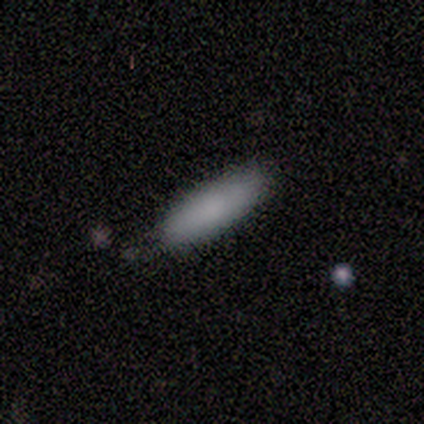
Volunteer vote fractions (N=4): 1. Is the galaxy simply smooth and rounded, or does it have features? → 100% smooth, 0% featured or disk, 0% star or artifact.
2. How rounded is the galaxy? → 75% cigar-shaped, 25% in between, 0% round.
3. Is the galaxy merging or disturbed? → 50% none, 25% minor disturbance, 25% major disturbance, 0% merger.